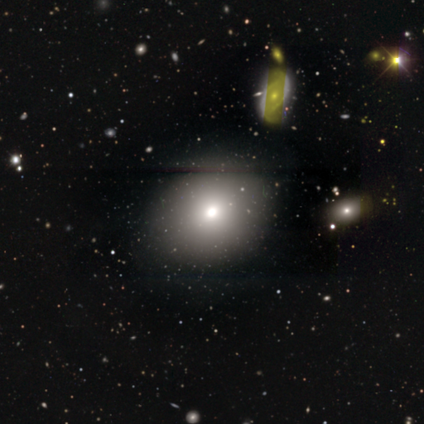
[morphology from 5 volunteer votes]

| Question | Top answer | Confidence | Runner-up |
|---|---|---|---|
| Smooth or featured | smooth | 60% | featured or disk (20%) |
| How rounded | in between | 67% | round (33%) |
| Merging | none | 100% | — |